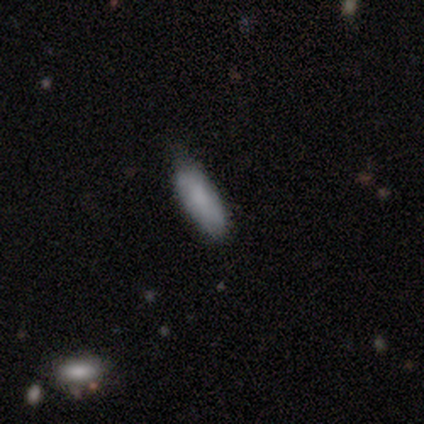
This appears to be a smooth galaxy with no disk features (100%) that is in between round and cigar-shaped (60%). Merging: none (80%).